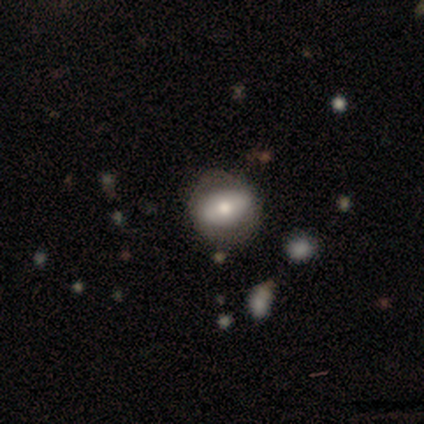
featured or disk 60%, smooth 40%, star or artifact 0%. Down the decision tree: edge-on disk — no (100%); bar — no (100%); spiral arms — no (67%); bulge size — small (67%); merging — none (80%).